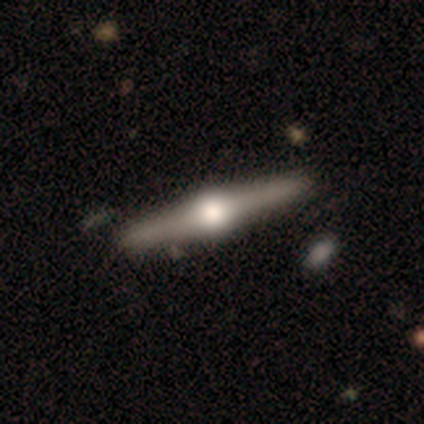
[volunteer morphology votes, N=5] Q: Smooth or featured?
A: featured or disk (100%)
Q: Edge-on disk?
A: yes (100%)
Q: Edge-on bulge?
A: rounded (100%)
Q: Merging?
A: none (80%); runner-up: minor disturbance (20%)